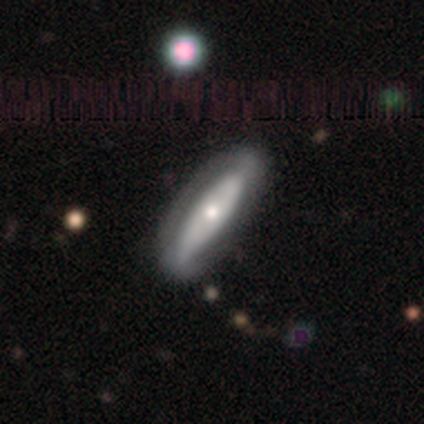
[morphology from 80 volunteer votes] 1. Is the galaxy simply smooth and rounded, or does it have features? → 60% featured or disk, 36% smooth, 4% star or artifact.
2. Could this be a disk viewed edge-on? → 73% no, 27% yes.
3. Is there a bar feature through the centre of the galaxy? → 77% no, 17% strong, 6% weak.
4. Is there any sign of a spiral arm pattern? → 66% no, 34% yes.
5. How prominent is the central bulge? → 54% moderate, 31% small, 9% large, 3% dominant, 3% none.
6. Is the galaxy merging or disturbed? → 42% none, 5% major disturbance, 4% minor disturbance, 3% merger.